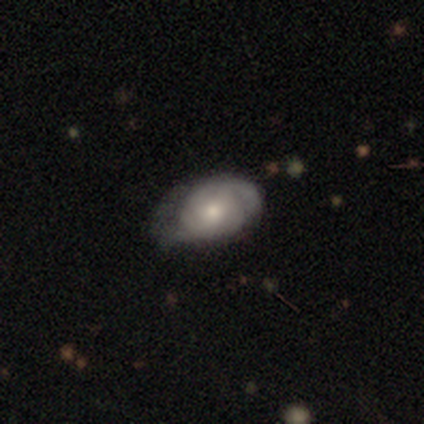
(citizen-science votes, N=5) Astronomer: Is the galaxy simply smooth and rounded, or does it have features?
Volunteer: featured or disk — 60% (runner-up: smooth, 40%).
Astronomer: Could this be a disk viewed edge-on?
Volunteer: no — 100%.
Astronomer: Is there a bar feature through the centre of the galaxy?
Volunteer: no — 67%.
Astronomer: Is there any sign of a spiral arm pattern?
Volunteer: yes — 100%.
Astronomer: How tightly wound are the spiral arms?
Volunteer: tight — 100%.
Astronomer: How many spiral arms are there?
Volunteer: can't tell — 67%.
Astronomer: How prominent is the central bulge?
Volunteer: moderate — 100%.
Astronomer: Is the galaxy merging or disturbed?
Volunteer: minor disturbance — 60% (runner-up: none, 40%).